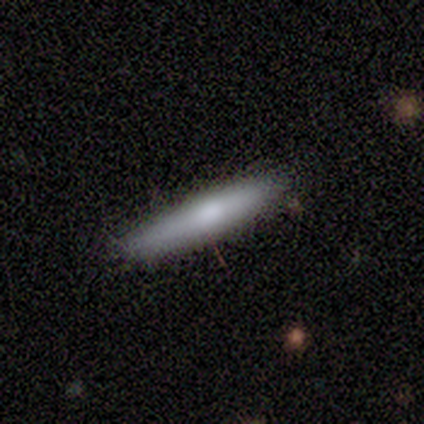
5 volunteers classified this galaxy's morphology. This is likely a smooth galaxy (60%). How rounded: likely cigar-shaped (67%). Merging: clearly none (100%).